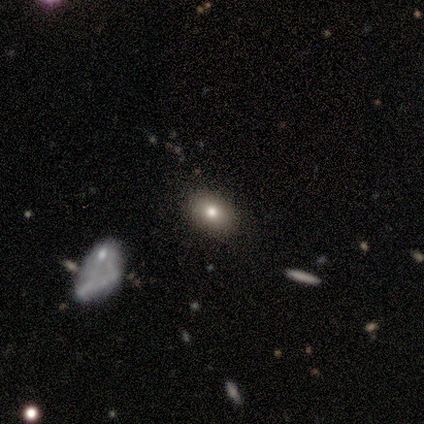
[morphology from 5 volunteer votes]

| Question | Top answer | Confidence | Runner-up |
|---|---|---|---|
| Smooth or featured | star or artifact | 60% | smooth (40%) |